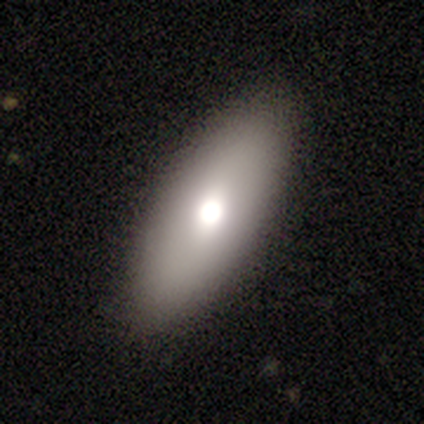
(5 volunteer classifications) Smooth or featured: smooth — 60% (featured or disk — 40%)
How rounded: in between — 67% (cigar-shaped — 33%)
Merging: none — 80% (minor disturbance — 20%)